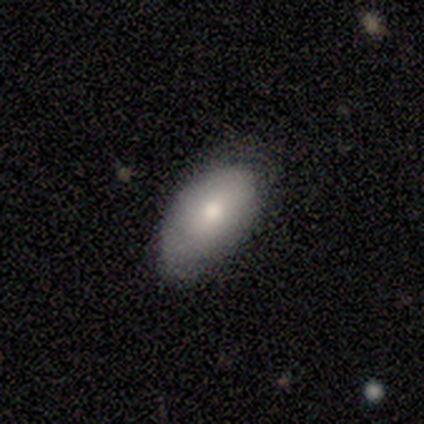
Smooth or featured: smooth — 100%
How rounded: in between — 100%
Merging: minor disturbance — 80% (none — 20%)